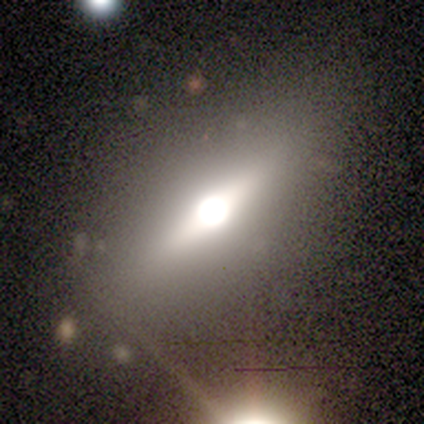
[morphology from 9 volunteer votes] A smooth galaxy with no disk features (56%) that is in between round and cigar-shaped (100%). Merging: none (78%).